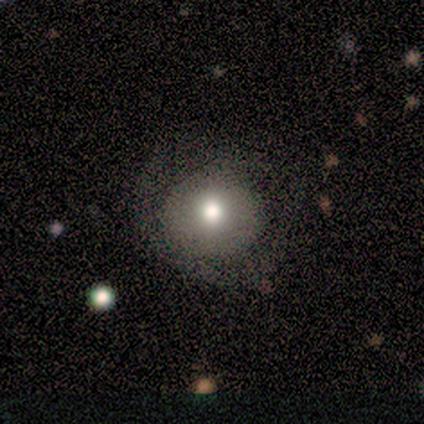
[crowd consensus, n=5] Smooth or featured?
  - smooth: 100% *
  - featured or disk: 0%
  - star or artifact: 0%
How rounded?
  - round: 60% *
  - in between: 40%
  - cigar-shaped: 0%
Merging?
  - minor disturbance: 40% * (tied)
  - major disturbance: 40% * (tied)
  - none: 20%
  - merger: 0%